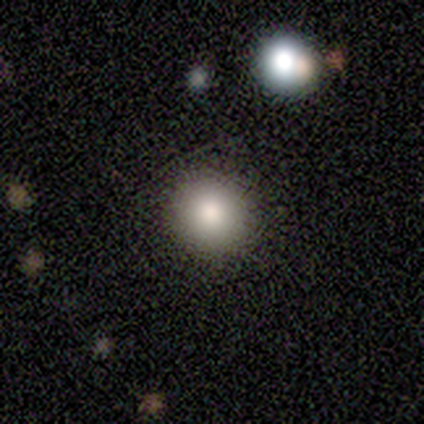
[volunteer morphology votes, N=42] type=smooth (76%); roundness=round (88%); merging=none (93%).